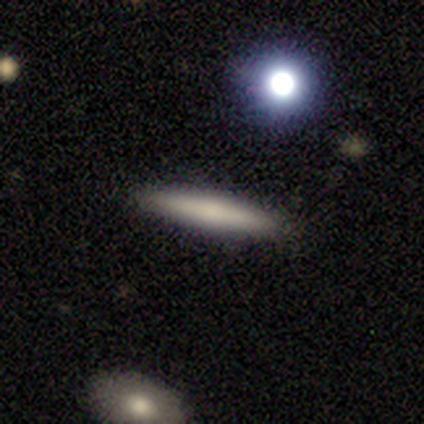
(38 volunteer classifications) Smooth or featured: smooth — 63% (featured or disk — 26%)
How rounded: cigar-shaped — 100%
Merging: none — 94% (minor disturbance — 6%)